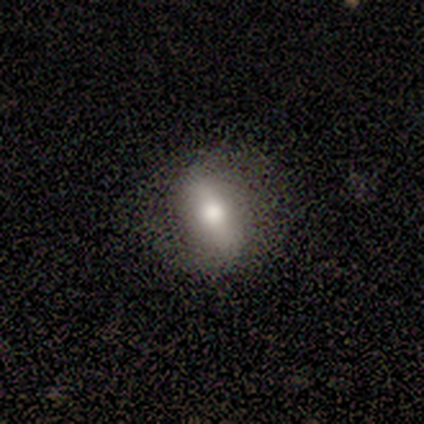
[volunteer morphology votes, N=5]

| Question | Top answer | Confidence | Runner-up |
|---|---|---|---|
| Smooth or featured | featured or disk | 80% | smooth (20%) |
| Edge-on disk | yes | 50% | tied: no (50%) |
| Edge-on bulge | rounded | 100% | — |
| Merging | none | 60% | major disturbance (20%) |